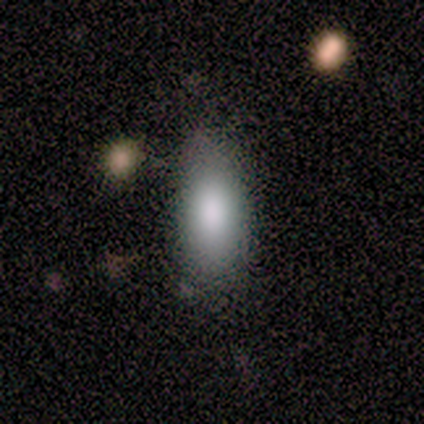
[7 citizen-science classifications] Smooth or featured? 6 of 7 (86%) said smooth. How rounded? 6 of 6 (100%) said in between. Merging? 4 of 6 (67%) said none.